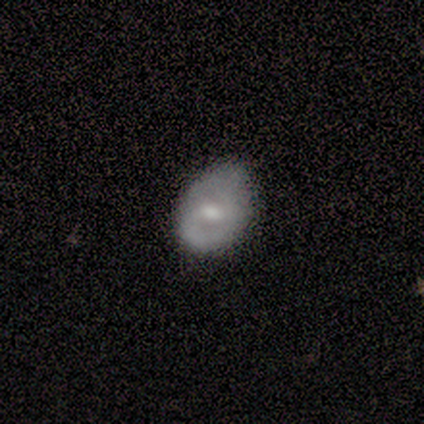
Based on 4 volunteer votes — smooth 50% (tied), featured or disk 50% (tied), star or artifact 0%. Down the decision tree: how rounded — in between (100%); merging — none (75%).